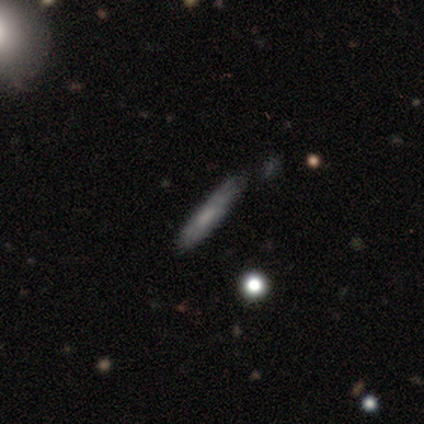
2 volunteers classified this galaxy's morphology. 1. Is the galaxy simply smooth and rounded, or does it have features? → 100% smooth, 0% featured or disk, 0% star or artifact.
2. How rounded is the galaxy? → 50% in between (tied), 50% cigar-shaped (tied), 0% round.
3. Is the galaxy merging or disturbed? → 50% none (tied), 50% minor disturbance (tied), 0% major disturbance, 0% merger.